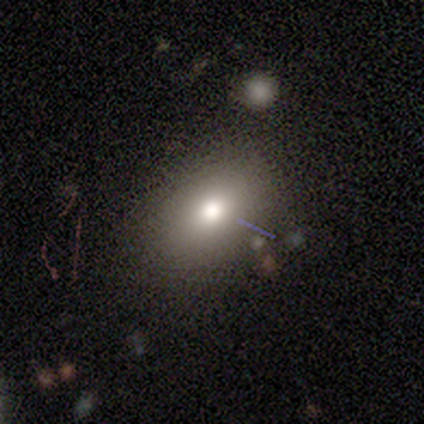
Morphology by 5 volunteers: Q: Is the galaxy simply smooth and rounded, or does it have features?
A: smooth — 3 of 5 (60%).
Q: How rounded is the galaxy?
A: in between — 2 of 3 (67%).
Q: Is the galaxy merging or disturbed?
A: none — 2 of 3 (67%).